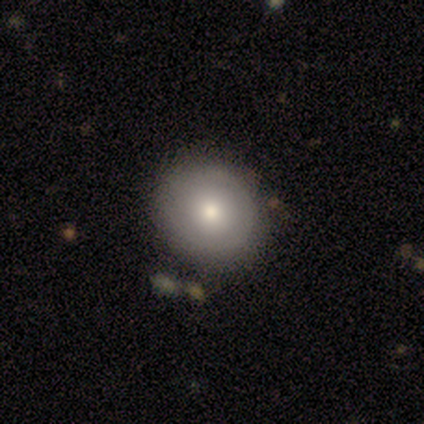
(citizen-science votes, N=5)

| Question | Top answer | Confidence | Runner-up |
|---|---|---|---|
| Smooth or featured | smooth | 60% | featured or disk (40%) |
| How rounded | round | 100% | — |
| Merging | none | 80% | minor disturbance (20%) |